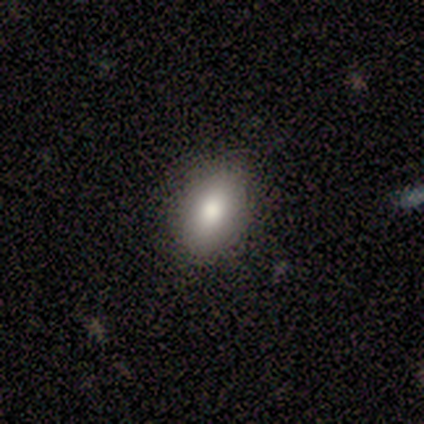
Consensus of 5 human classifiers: featured or disk 60%, smooth 40%, star or artifact 0%. Down the decision tree: edge-on disk — no (100%); bar — no (100%); spiral arms — no (100%); bulge size — moderate (67%); merging — none (100%).